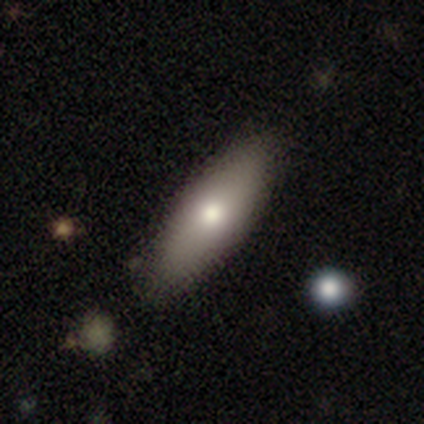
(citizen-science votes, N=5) smooth 60%, featured or disk 20%, star or artifact 20%. Down the decision tree: how rounded — cigar-shaped (67%); merging — none (75%).